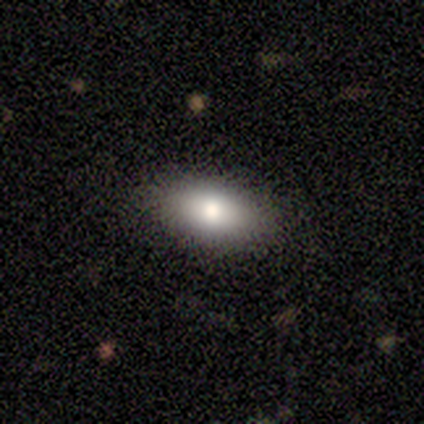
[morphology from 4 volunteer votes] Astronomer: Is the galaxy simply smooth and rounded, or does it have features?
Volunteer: smooth — 100%.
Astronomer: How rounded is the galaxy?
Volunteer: in between — 75%.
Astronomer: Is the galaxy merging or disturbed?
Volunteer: none — 75%.